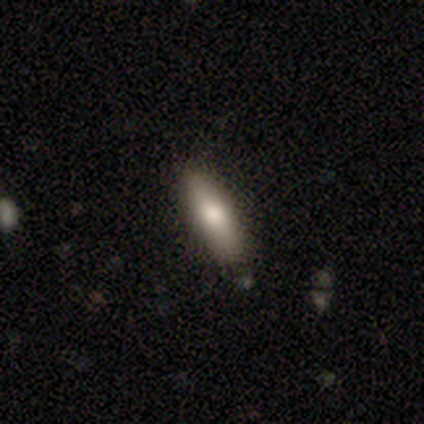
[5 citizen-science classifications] This is clearly a smooth galaxy (100%). How rounded: clearly in between (80%). Merging: clearly none (100%).